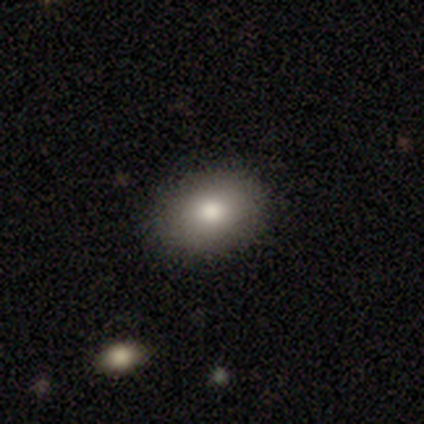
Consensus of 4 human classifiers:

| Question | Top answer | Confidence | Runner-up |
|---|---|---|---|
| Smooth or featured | smooth | 100% | — |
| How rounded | round | 50% | tied: in between (50%) |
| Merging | none | 50% | tied: minor disturbance (50%) |